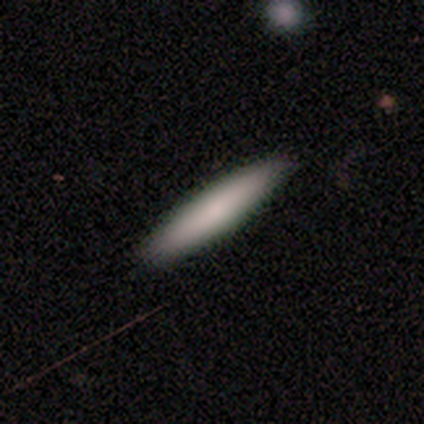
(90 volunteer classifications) This appears to be a smooth galaxy with no disk features (77%) that is cigar-shaped (93%). Merging: none (92%).